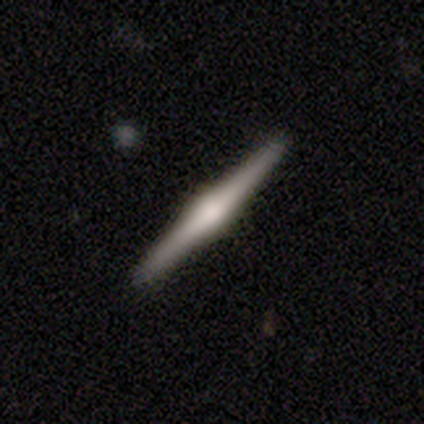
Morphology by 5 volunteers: Smooth or featured?
  - featured or disk: 80% *
  - star or artifact: 20%
  - smooth: 0%
Edge-on disk?
  - yes: 100% *
  - no: 0%
Edge-on bulge?
  - rounded: 75% *
  - boxy: 25%
  - none: 0%
Merging?
  - none: 100% *
  - minor disturbance: 0%
  - major disturbance: 0%
  - merger: 0%